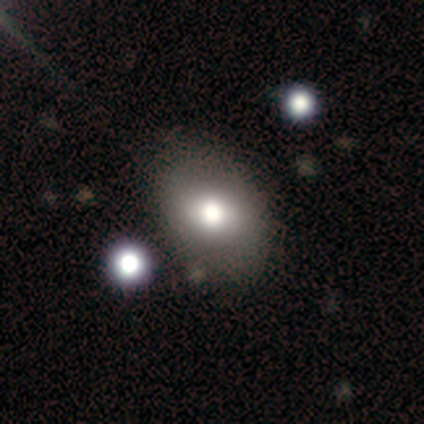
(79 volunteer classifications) Smooth or featured?
  - smooth: 78% *
  - featured or disk: 15%
  - star or artifact: 6%
How rounded?
  - in between: 74% *
  - round: 26%
  - cigar-shaped: 0%
Merging?
  - none: 45% *
  - minor disturbance: 15%
  - merger: 8%
  - major disturbance: 1%